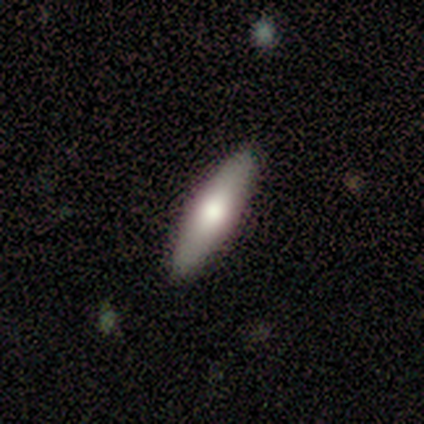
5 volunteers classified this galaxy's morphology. Smooth or featured? smooth (60%)
How rounded? cigar-shaped (67%)
Merging? none (100%)